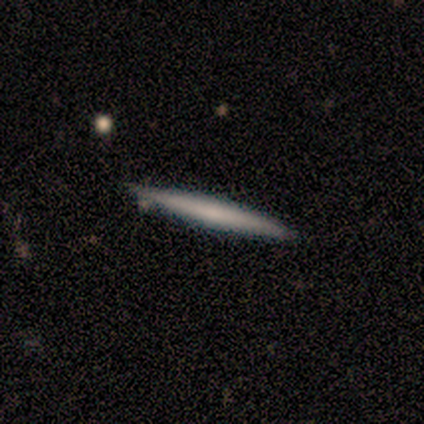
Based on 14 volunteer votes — Smooth or featured? 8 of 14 (57%) said featured or disk. Edge-on disk? 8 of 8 (100%) said yes. Edge-on bulge? 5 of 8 (62%) said none. Merging? 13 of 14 (93%) said none.